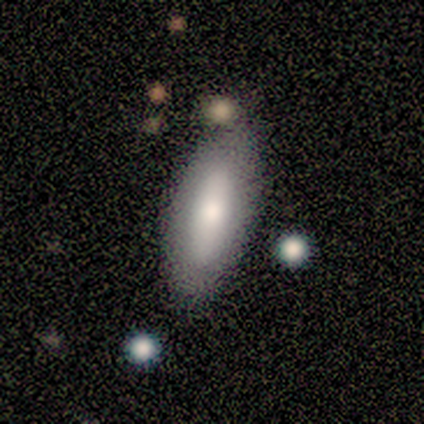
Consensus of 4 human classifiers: A smooth galaxy with no disk features (75%) that is in between round and cigar-shaped (100%).

Vote fractions:
- Smooth or featured? smooth: 75% / featured or disk: 25% / star or artifact: 0%
- How rounded? in between: 100% / round: 0% / cigar-shaped: 0%
- Merging? none: 50% (tied) / minor disturbance: 50% (tied) / major disturbance: 0% / merger: 0%